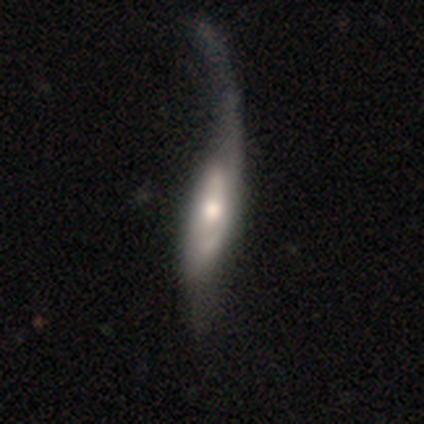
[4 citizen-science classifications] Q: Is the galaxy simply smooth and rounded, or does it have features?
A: smooth — 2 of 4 (50%, tied with featured or disk).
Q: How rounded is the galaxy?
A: in between — 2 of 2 (100%).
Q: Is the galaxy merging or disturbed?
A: major disturbance — 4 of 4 (100%).